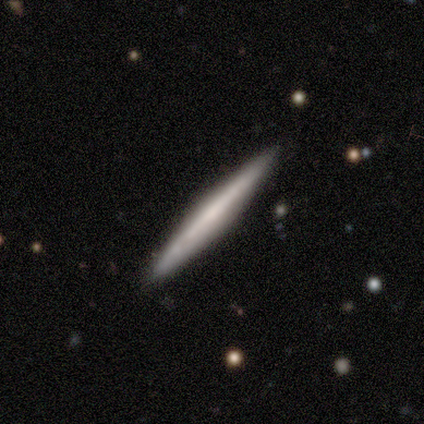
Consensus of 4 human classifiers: Overall: smooth (50%, tied with featured or disk). How rounded: cigar-shaped (100%). Merging: none (100%).